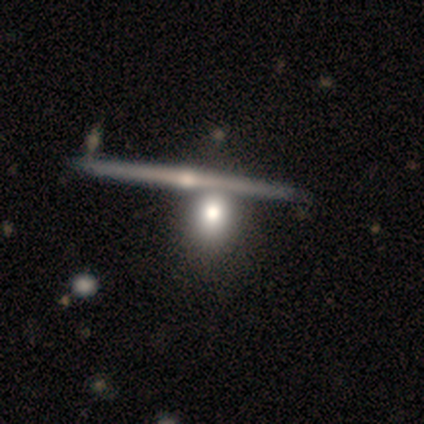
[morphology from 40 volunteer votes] Smooth or featured?
  - featured or disk: 52% *
  - smooth: 42%
  - star or artifact: 5%
Edge-on disk?
  - yes: 90% *
  - no: 10%
Edge-on bulge?
  - rounded: 79% *
  - none: 16%
  - boxy: 5%
Merging?
  - none: 39% * (tied)
  - merger: 39% * (tied)
  - major disturbance: 3%
  - minor disturbance: 0%